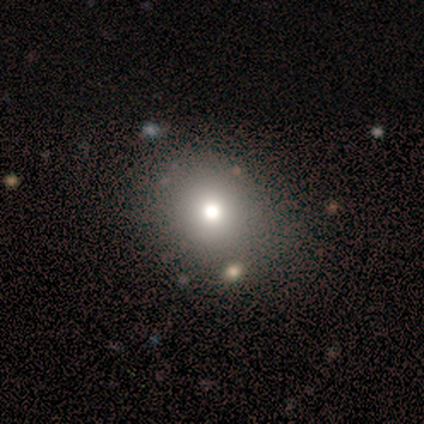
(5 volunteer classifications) Smooth or featured?
  - smooth: 60% *
  - star or artifact: 40%
  - featured or disk: 0%
How rounded?
  - round: 100% *
  - in between: 0%
  - cigar-shaped: 0%
Merging?
  - none: 67% *
  - merger: 33%
  - minor disturbance: 0%
  - major disturbance: 0%